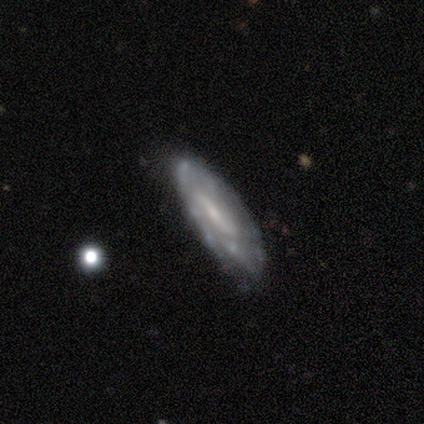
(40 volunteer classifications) Smooth or featured?
  - featured or disk: 72% *
  - smooth: 28%
  - star or artifact: 0%
Edge-on disk?
  - no: 72% *
  - yes: 28%
Bar?
  - weak: 48% *
  - no: 33%
  - strong: 19%
Spiral arms?
  - yes: 57% *
  - no: 43%
Spiral winding?
  - loose: 42% *
  - tight: 33%
  - medium: 25%
Spiral arm count?
  - can't tell: 58% *
  - 3: 25%
  - 1: 8%
  - 2: 8%
  - 4: 0%
  - more than 4: 0%
Bulge size?
  - small: 43% *
  - none: 29%
  - moderate: 24%
  - large: 5%
  - dominant: 0%
Merging?
  - none: 82% *
  - minor disturbance: 12%
  - major disturbance: 5%
  - merger: 0%